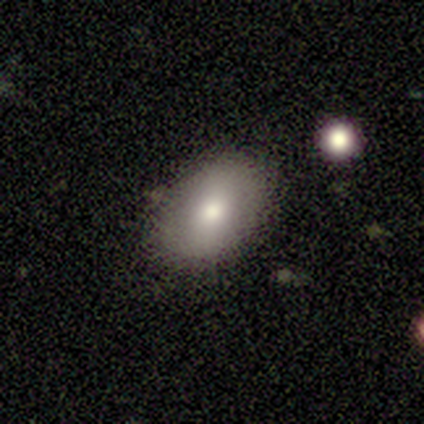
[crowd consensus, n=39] Morphology: type=smooth (69%); roundness=in between (89%); merging=none (86%).